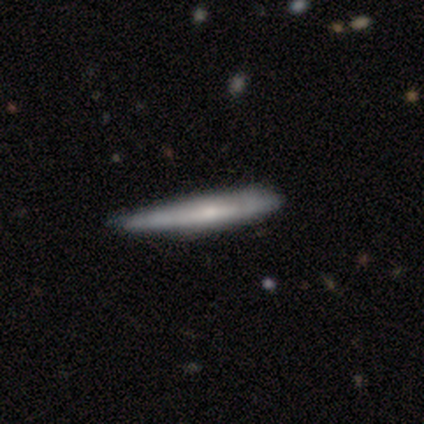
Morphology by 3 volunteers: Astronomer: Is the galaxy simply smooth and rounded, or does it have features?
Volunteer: smooth — 100%.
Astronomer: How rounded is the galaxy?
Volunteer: cigar-shaped — 100%.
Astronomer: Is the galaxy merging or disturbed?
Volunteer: minor disturbance — 67%.